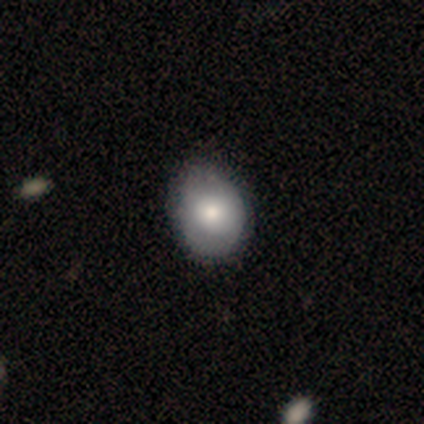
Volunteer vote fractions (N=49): smooth_or_featured: smooth (p=0.84) [alt: featured or disk p=0.16]
how_rounded: in between (p=0.73) [alt: round p=0.27]
merging: none (p=0.71) [alt: minor disturbance p=0.14]